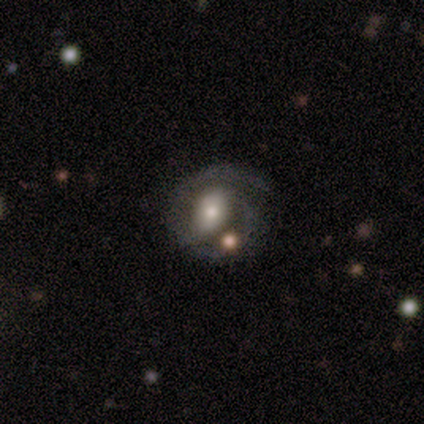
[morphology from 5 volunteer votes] Smooth or featured? featured or disk (60%)
Edge-on disk? no (100%)
Bar? weak (67%)
Spiral arms? yes (100%)
Spiral winding? tight (67%)
Spiral arm count? 2 (67%)
Bulge size? large (33%, tied with moderate and small)
Merging? none (60%)